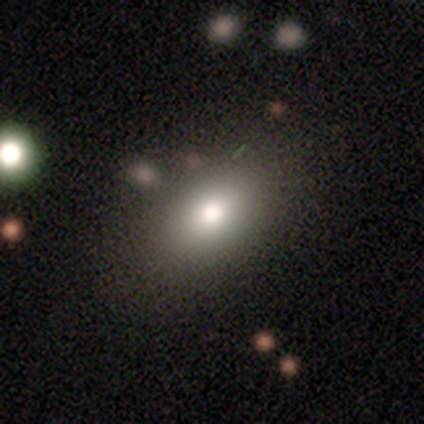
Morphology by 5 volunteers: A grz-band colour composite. It shows a featured or disk galaxy (60%) with no bar (67%), no spiral arms (100%) and a large central bulge (33%, tied with moderate and none). Merging: none (80%).